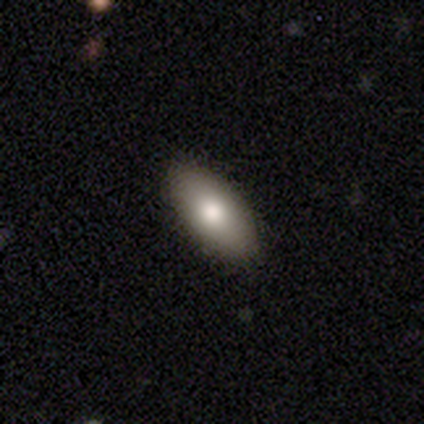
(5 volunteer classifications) This appears to be a smooth galaxy with no disk features (60%) that is in between round and cigar-shaped (100%). Merging: none (80%).